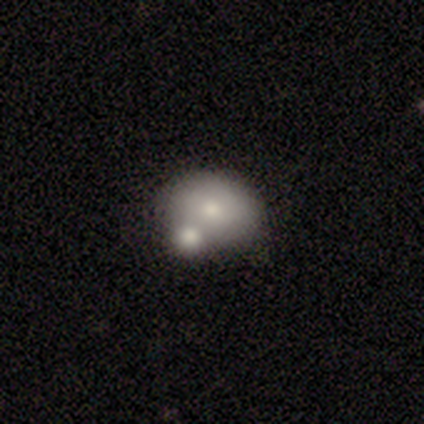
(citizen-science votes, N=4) smooth 50% (tied), featured or disk 50% (tied), star or artifact 0%. Down the decision tree: how rounded — round (50%, tied with in between); merging — none (50%).